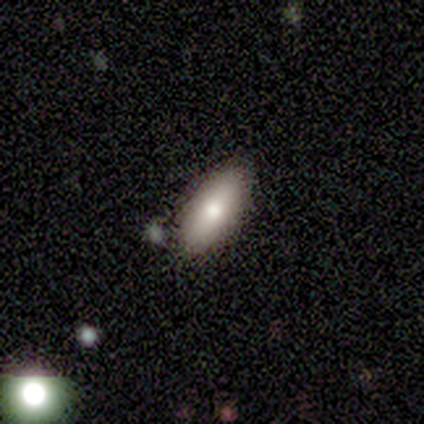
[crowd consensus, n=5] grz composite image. It shows a smooth galaxy with no disk features (80%) that is in between round and cigar-shaped (75%). Merging: none (100%).